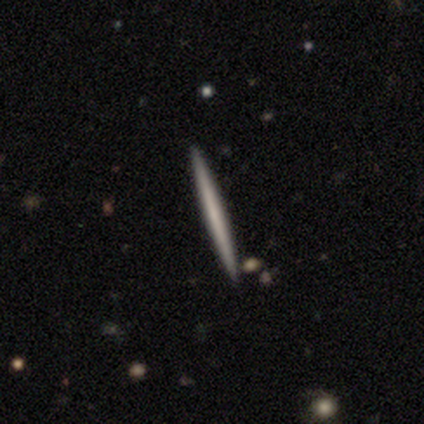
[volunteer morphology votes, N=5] smooth 60%, featured or disk 40%, star or artifact 0%. Down the decision tree: how rounded — cigar-shaped (100%); merging — none (100%).